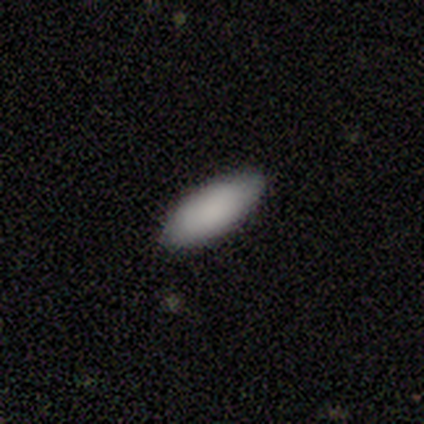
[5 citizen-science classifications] Smooth or featured: smooth — 100%
How rounded: in between — 100%
Merging: none — 80% (minor disturbance — 20%)